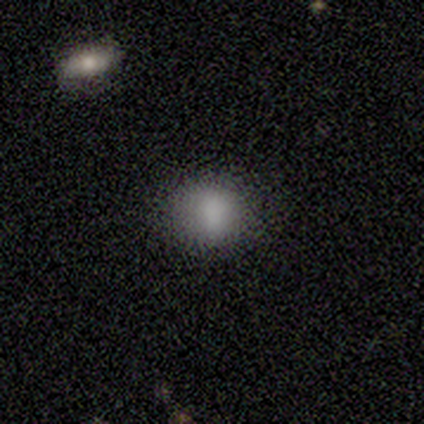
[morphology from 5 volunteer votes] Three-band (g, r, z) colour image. It shows a smooth galaxy with no disk features (100%) that is round (80%). Merging: none (60%).